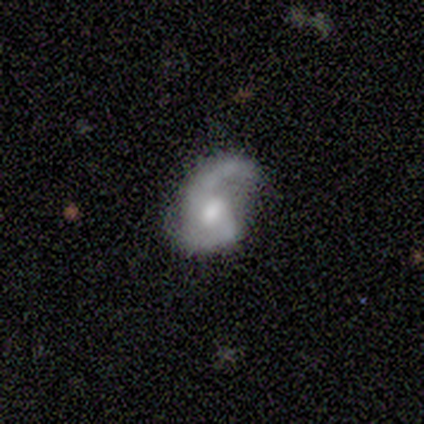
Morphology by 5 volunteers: This is clearly a featured or disk galaxy (100%). It is clearly not viewed edge-on (100%). Bar: likely no (60%). Spiral arm pattern: clearly yes (100%). Spiral arm count: clearly 2 (80%). Spiral winding: likely loose (60%). Central bulge: likely moderate (60%). Merging: clearly none (80%).